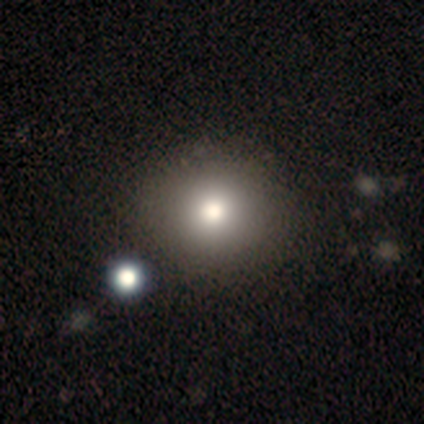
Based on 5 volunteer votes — Smooth or featured? 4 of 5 (80%) said smooth. How rounded? 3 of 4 (75%) said round. Merging? 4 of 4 (100%) said none.